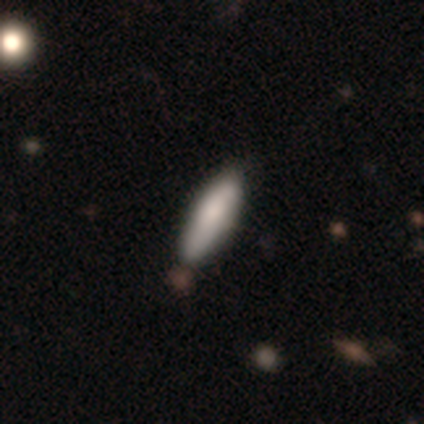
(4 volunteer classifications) Overall: smooth (100%). How rounded: cigar-shaped (100%). Merging: none (50%, tied with minor disturbance).